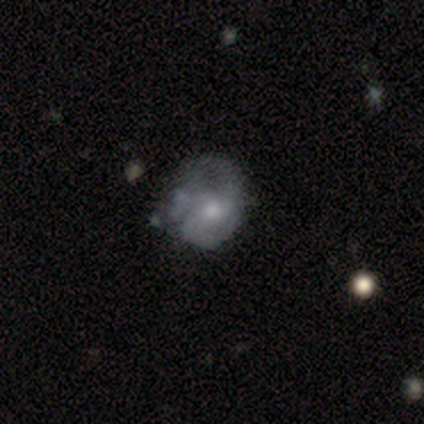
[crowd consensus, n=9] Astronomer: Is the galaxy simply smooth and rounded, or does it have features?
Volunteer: featured or disk — 67%.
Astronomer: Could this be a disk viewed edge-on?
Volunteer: no — 100%.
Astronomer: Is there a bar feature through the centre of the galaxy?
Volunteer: no — 67%.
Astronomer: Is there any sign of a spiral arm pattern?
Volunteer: yes — 83%.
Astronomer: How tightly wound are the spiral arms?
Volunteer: tight — 40%, tied with loose at 40%.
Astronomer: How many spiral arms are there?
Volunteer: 2 — 60% (runner-up: 1, 40%).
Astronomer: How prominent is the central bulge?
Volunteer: moderate — 67%.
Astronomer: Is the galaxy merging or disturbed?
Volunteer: none — 56% (runner-up: major disturbance, 33%).